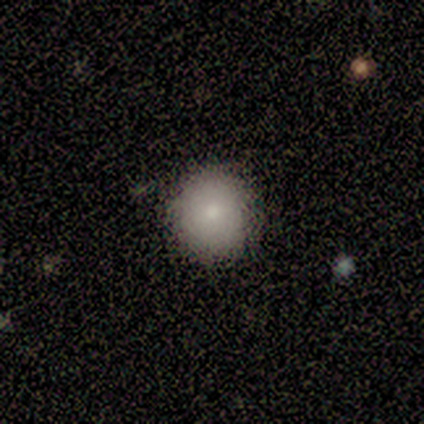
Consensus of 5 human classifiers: A smooth galaxy with no disk features (100%) that is round (100%).

Vote fractions:
- Smooth or featured? smooth: 100% / featured or disk: 0% / star or artifact: 0%
- How rounded? round: 100% / in between: 0% / cigar-shaped: 0%
- Merging? none: 100% / minor disturbance: 0% / major disturbance: 0% / merger: 0%